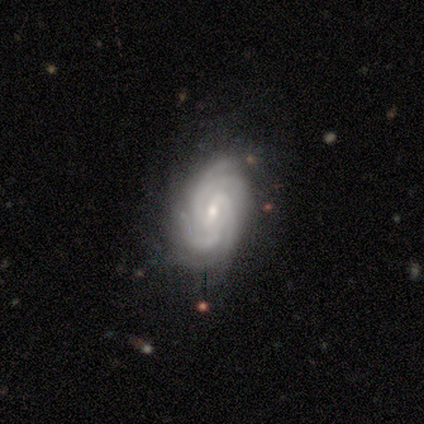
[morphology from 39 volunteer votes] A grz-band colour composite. It shows a featured or disk galaxy (97%) with a weak bar (51%), 4 (54%) tight (76%) spiral arms (100%) and a small central bulge (76%). Merging: none (74%).